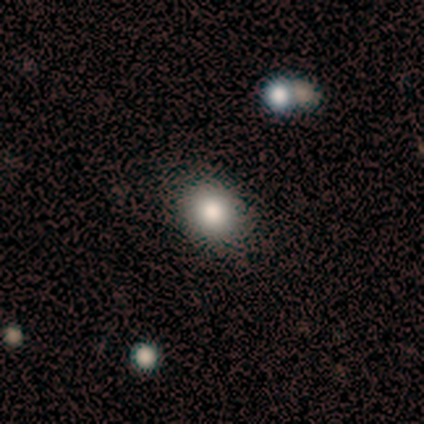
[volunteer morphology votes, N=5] Smooth or featured? 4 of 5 (80%) said smooth. How rounded? 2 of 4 (50%, tied with in between) said round. Merging? 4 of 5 (80%) said none.